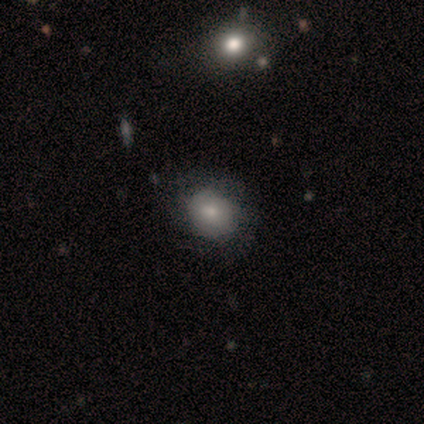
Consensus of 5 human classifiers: Smooth or featured?
  - smooth: 60% *
  - featured or disk: 20%
  - star or artifact: 20%
How rounded?
  - round: 100% *
  - in between: 0%
  - cigar-shaped: 0%
Merging?
  - none: 75% *
  - minor disturbance: 25%
  - major disturbance: 0%
  - merger: 0%